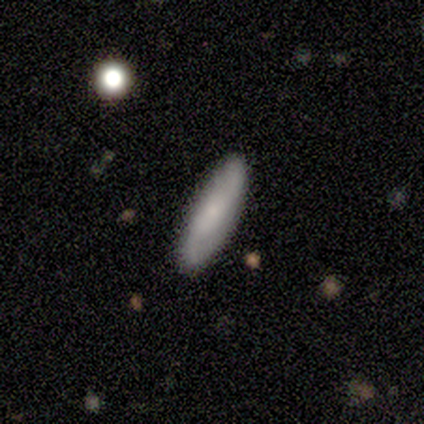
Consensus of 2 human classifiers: Smooth or featured? 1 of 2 (50%, tied with featured or disk) said smooth. How rounded? 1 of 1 (100%) said cigar-shaped. Merging? 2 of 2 (100%) said none.